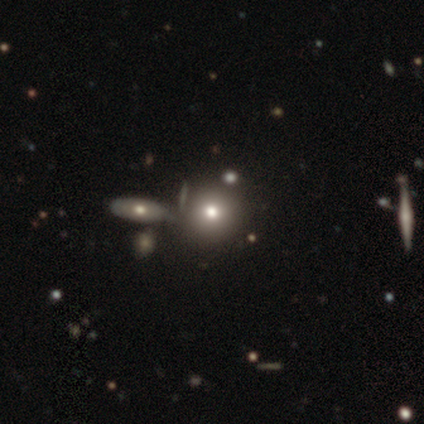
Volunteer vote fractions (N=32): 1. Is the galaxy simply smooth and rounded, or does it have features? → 75% smooth, 16% star or artifact, 9% featured or disk.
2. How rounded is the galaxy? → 79% round, 21% in between, 0% cigar-shaped.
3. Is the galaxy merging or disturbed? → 56% merger, 0% none, 0% minor disturbance, 0% major disturbance.